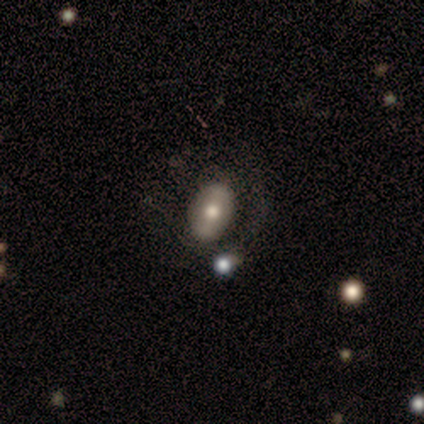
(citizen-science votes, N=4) Smooth or featured? featured or disk (50%)
Edge-on disk? no (100%)
Bar? strong (100%)
Spiral arms? no (100%)
Bulge size? dominant (50%, tied with moderate)
Merging? none (100%)